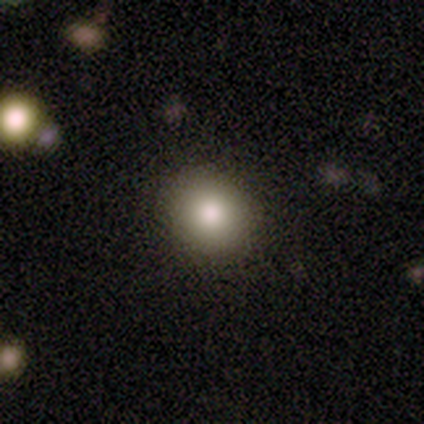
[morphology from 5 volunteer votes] Smooth or featured? 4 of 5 (80%) said smooth. How rounded? 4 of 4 (100%) said round. Merging? 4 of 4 (100%) said none.